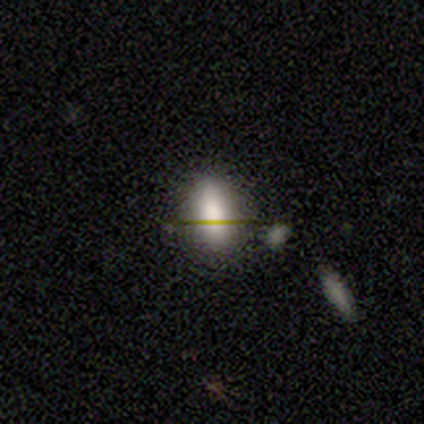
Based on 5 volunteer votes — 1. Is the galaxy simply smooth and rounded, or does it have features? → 80% smooth, 20% featured or disk, 0% star or artifact.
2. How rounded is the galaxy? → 100% in between, 0% round, 0% cigar-shaped.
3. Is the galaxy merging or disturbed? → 100% none, 0% minor disturbance, 0% major disturbance, 0% merger.